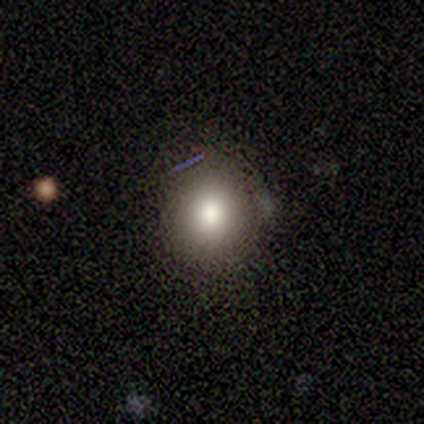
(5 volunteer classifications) Morphology: type=smooth (80%); roundness=round (100%); merging=none (75%).